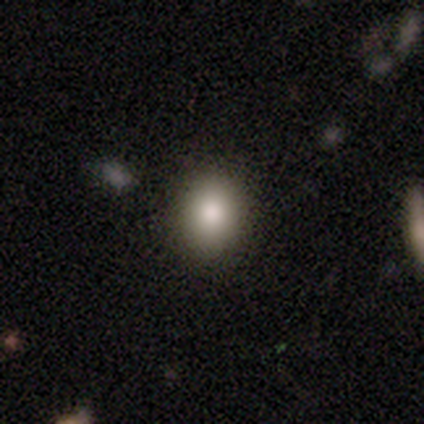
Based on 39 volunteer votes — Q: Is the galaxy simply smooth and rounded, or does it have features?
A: smooth — 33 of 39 (85%).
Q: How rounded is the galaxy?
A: round — 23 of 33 (70%).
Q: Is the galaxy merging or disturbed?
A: none — 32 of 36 (89%).